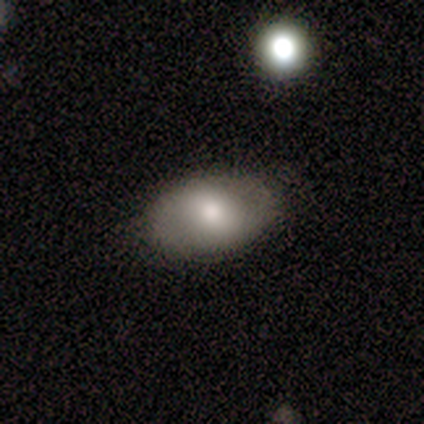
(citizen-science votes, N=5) Smooth or featured?
  - smooth: 60% *
  - featured or disk: 40%
  - star or artifact: 0%
How rounded?
  - in between: 67% *
  - cigar-shaped: 33%
  - round: 0%
Merging?
  - none: 80% *
  - minor disturbance: 20%
  - major disturbance: 0%
  - merger: 0%